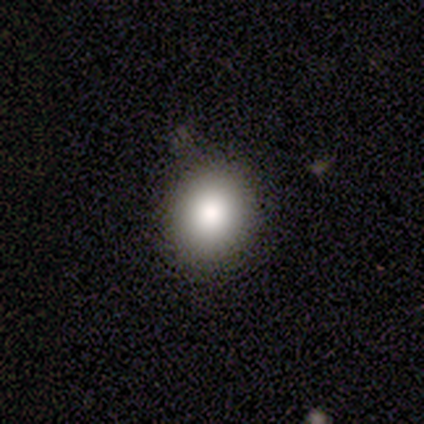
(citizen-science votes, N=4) A smooth galaxy with no disk features (100%) that is round (100%).

Vote fractions:
- Smooth or featured? smooth: 100% / featured or disk: 0% / star or artifact: 0%
- How rounded? round: 100% / in between: 0% / cigar-shaped: 0%
- Merging? none: 100% / minor disturbance: 0% / major disturbance: 0% / merger: 0%